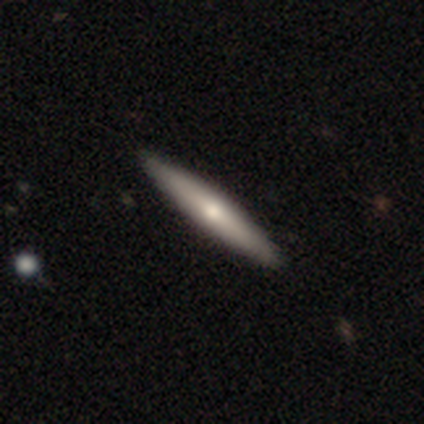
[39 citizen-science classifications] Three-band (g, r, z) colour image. It shows a smooth galaxy with no disk features (64%) that is cigar-shaped (96%). Merging: none (72%).